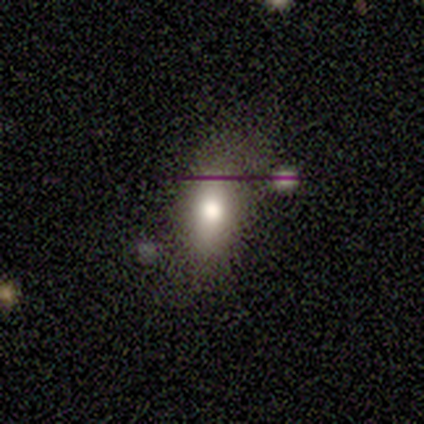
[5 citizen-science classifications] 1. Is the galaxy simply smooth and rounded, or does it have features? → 80% smooth, 20% featured or disk, 0% star or artifact.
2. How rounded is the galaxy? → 100% in between, 0% round, 0% cigar-shaped.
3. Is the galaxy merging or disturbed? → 60% none, 40% minor disturbance, 0% major disturbance, 0% merger.